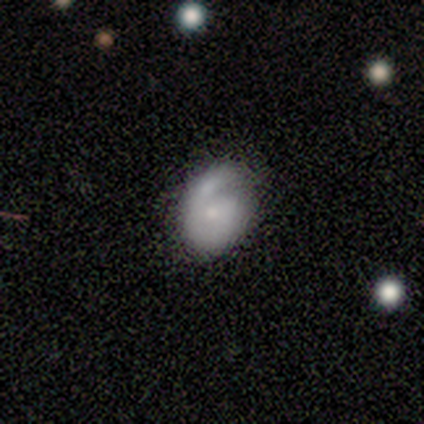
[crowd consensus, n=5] This appears to be a smooth galaxy with no disk features (60%) that is in between round and cigar-shaped (67%). Merging: none (40%, tied with minor disturbance).